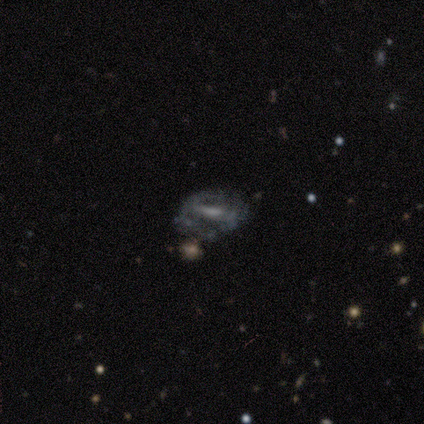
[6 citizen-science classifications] This is clearly a featured or disk galaxy (83%). It is clearly not viewed edge-on (100%). Bar: likely weak (60%). Spiral arm pattern: likely yes (60%). Spiral arm count: likely 2 (67%). Spiral winding: likely tight (67%). Central bulge: marginally small (40%). Merging: likely none (67%).